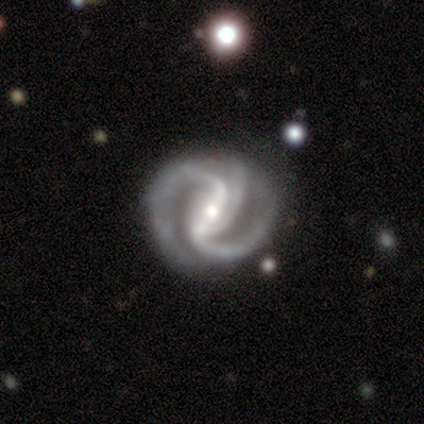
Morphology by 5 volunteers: smooth-or-featured: featured or disk: 100% | smooth: 0% | star or artifact: 0%
  disk-edge-on: no: 100% | yes: 0%
    bar: strong: 60% | weak: 20% | no: 20%
    has-spiral-arms: yes: 100% | no: 0%
      spiral-winding: tight: 40% (tied) | medium: 40% (tied) | loose: 20%
      spiral-arm-count: 2: 40% (tied) | 4: 40% (tied) | 3: 20% | 1: 0% | more than 4: 0% | can't tell: 0%
    bulge-size: moderate: 40% (tied) | small: 40% (tied) | large: 20% | dominant: 0% | none: 0%
  merging: none: 80% | merger: 20% | minor disturbance: 0% | major disturbance: 0%